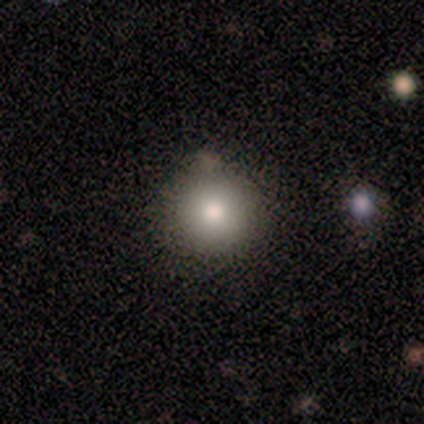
smooth 100%, featured or disk 0%, star or artifact 0%. Down the decision tree: how rounded — round (75%); merging — none (100%).